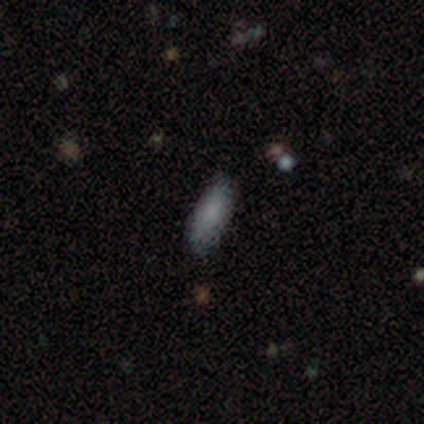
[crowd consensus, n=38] Volunteers were most divided on "how rounded": in between: 79%, cigar-shaped: 21%, round: 0%. More confident: smooth or featured — smooth (89%); merging — none (89%).